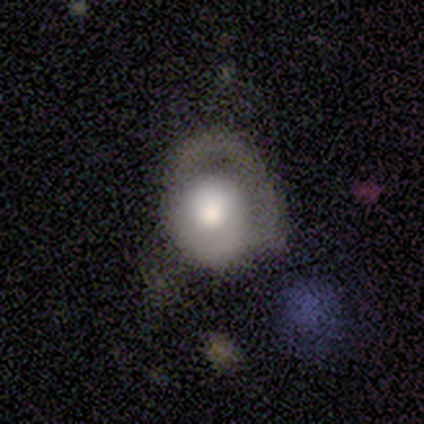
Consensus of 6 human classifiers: Volunteers were most divided on "merging": none: 50%, minor disturbance: 33%, merger: 17%, major disturbance: 0%. More confident: edge-on disk — no (100%); bar — no (100%); spiral arms — no (75%); smooth or featured — featured or disk (67%); bulge size — moderate (50%).